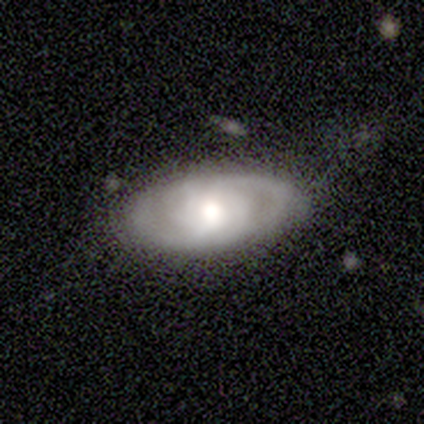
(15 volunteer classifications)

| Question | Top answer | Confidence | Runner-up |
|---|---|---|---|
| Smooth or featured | featured or disk | 93% | smooth (7%) |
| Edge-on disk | no | 79% | yes (21%) |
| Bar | no | 64% | weak (27%) |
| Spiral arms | yes | 100% | — |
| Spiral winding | tight | 45% | loose (36%) |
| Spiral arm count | can't tell | 55% | 2 (36%) |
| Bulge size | moderate | 73% | large (27%) |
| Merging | none | 73% | minor disturbance (27%) |